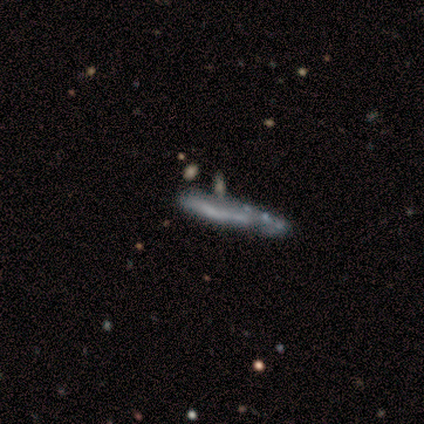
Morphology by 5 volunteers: smooth_or_featured: smooth (p=0.40) [tied with: featured or disk p=0.40]
how_rounded: cigar-shaped (p=1.00)
merging: none (p=0.50) [alt: minor disturbance p=0.25]